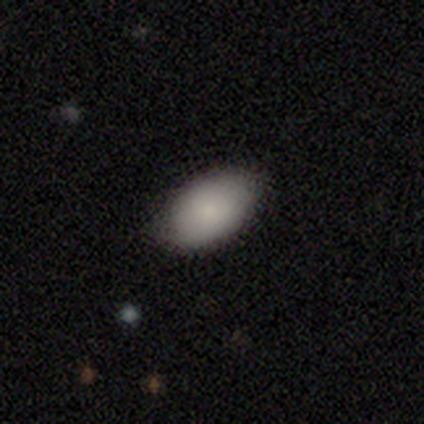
Smooth or featured?
  - smooth: 89% *
  - featured or disk: 11%
  - star or artifact: 0%
How rounded?
  - in between: 100% *
  - round: 0%
  - cigar-shaped: 0%
Merging?
  - none: 89% *
  - minor disturbance: 11%
  - major disturbance: 0%
  - merger: 0%